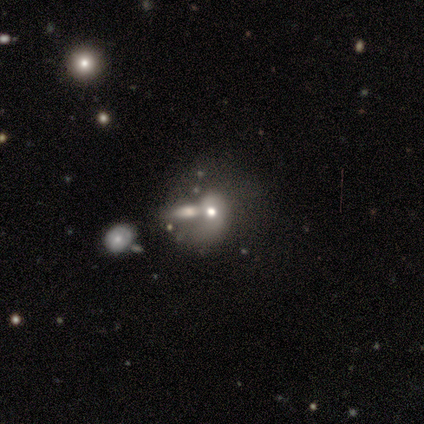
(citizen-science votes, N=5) Smooth or featured? 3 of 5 (60%) said smooth. How rounded? 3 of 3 (100%) said round. Merging? 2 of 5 (40%, tied with merger) said none.